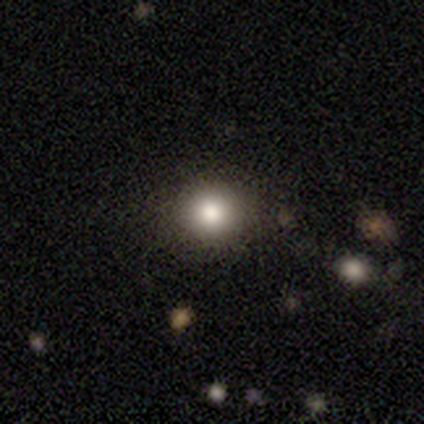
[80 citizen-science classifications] Q: Smooth or featured?
A: smooth (86%); runner-up: featured or disk (8%)
Q: How rounded?
A: round (91%); runner-up: in between (9%)
Q: Merging?
A: none (45%); runner-up: minor disturbance (5%)